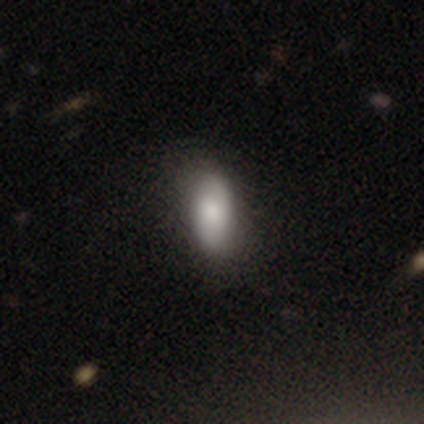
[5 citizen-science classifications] Smooth or featured? 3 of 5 (60%) said smooth. How rounded? 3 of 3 (100%) said in between. Merging? 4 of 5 (80%) said none.